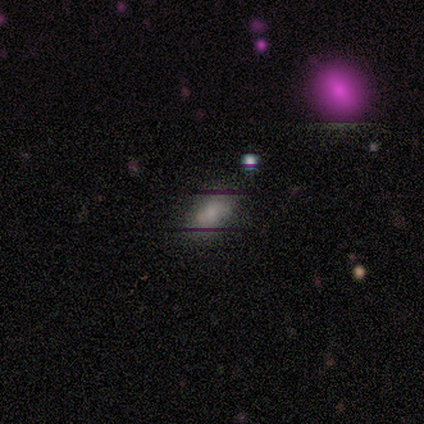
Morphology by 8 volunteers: This appears to be a smooth galaxy with no disk features (75%) that is in between round and cigar-shaped (100%). Merging: none (83%).